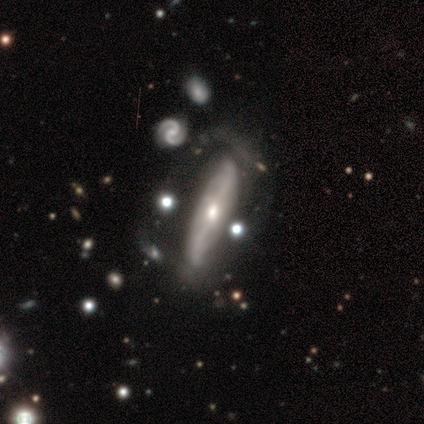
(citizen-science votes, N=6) This is clearly a featured or disk galaxy (100%). It is likely not viewed edge-on (67%). Bar: possibly no (50%). Spiral arm pattern: likely yes (75%). Spiral arm count: clearly 2 (100%). Spiral winding: marginally tight (33%, tied with medium and loose). Central bulge: possibly moderate (50%). Merging: possibly major disturbance (50%).